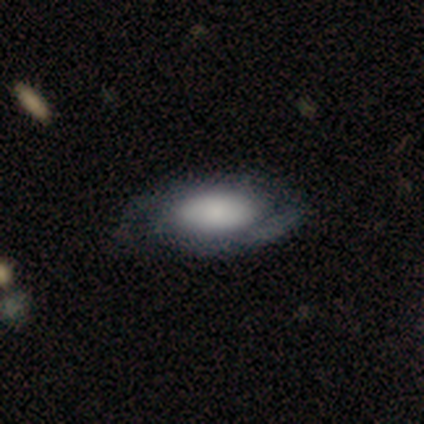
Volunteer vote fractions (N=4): A smooth galaxy with no disk features (50%, tied with featured or disk) that is in between round and cigar-shaped (100%).

Vote fractions:
- Smooth or featured? smooth: 50% (tied) / featured or disk: 50% (tied) / star or artifact: 0%
- How rounded? in between: 100% / round: 0% / cigar-shaped: 0%
- Merging? none: 100% / minor disturbance: 0% / major disturbance: 0% / merger: 0%